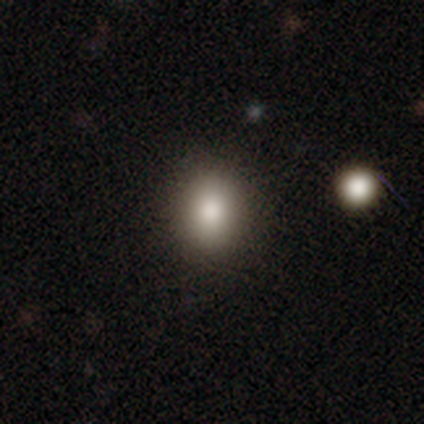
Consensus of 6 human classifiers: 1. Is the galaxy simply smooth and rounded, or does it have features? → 100% smooth, 0% featured or disk, 0% star or artifact.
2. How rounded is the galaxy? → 50% round (tied), 50% in between (tied), 0% cigar-shaped.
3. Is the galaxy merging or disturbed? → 100% none, 0% minor disturbance, 0% major disturbance, 0% merger.